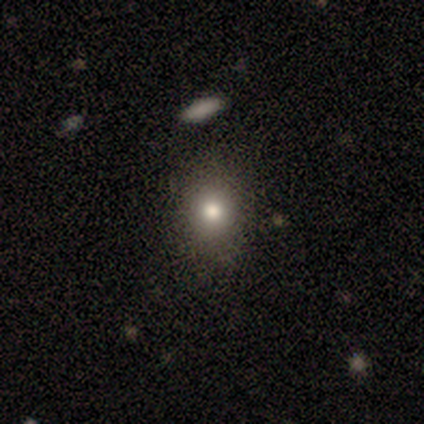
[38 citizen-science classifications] Morphology: type=smooth (84%); roundness=round (78%); merging=none (65%).